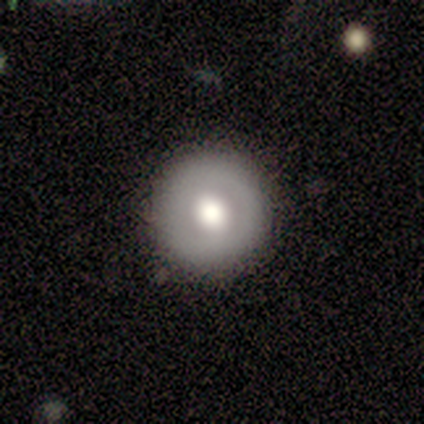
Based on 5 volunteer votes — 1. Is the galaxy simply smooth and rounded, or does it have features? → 60% featured or disk, 40% smooth, 0% star or artifact.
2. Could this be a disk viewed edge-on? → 100% no, 0% yes.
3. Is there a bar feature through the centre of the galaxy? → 67% no, 33% strong, 0% weak.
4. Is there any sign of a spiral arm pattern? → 67% no, 33% yes.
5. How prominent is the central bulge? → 67% moderate, 33% large, 0% dominant, 0% small, 0% none.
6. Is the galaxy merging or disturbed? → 100% none, 0% minor disturbance, 0% major disturbance, 0% merger.